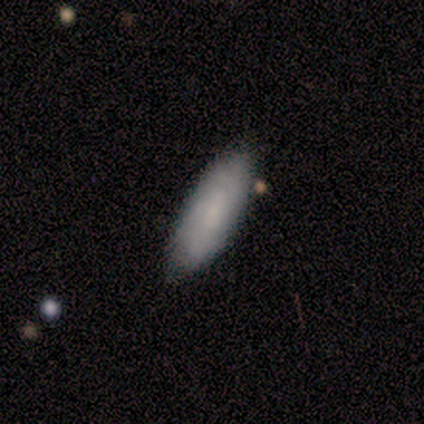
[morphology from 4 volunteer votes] smooth_or_featured: smooth (p=0.75) [alt: featured or disk p=0.25]
how_rounded: in between (p=0.67) [alt: cigar-shaped p=0.33]
merging: none (p=0.75) [alt: minor disturbance p=0.25]